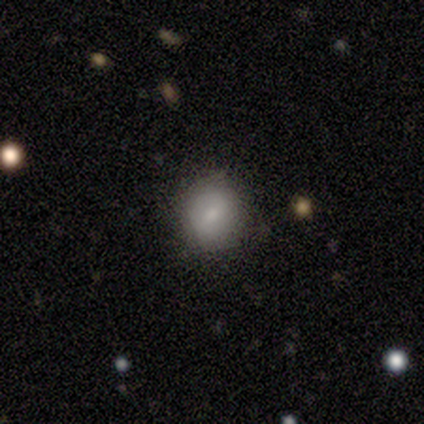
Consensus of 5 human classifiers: Morphology: type=smooth (100%); roundness=round (80%); merging=none (100%).